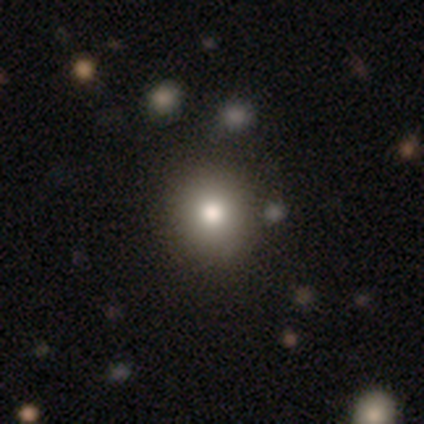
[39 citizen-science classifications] Smooth or featured? 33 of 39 (85%) said smooth. How rounded? 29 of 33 (88%) said round. Merging? 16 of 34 (47%) said none.